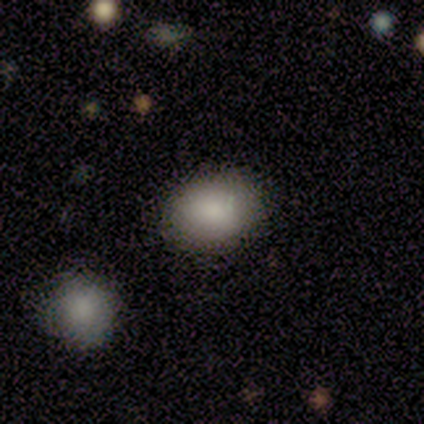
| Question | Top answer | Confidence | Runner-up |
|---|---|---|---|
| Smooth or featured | smooth | 86% | star or artifact (14%) |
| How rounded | round | 50% | tied: in between (50%) |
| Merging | none | 100% | — |